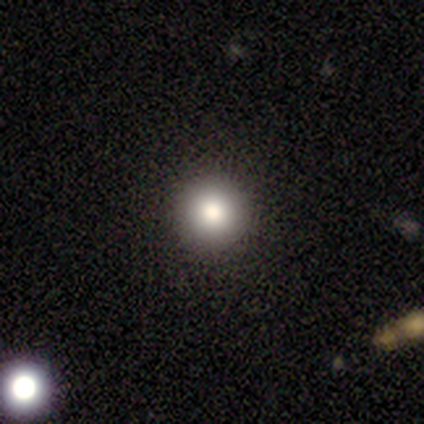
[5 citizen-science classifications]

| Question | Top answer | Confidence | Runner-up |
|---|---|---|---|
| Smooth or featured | smooth | 60% | featured or disk (20%) |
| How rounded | round | 100% | — |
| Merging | none | 100% | — |